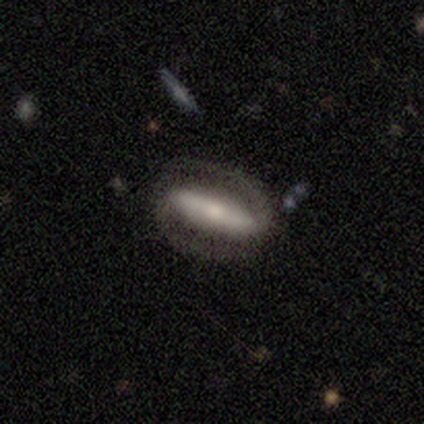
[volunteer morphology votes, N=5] A featured or disk galaxy (80%) with a strong bar (50%), 2 (100%) tight (33%, tied with medium and loose) spiral arms (75%) and a moderate central bulge (50%). Merging: none (60%).